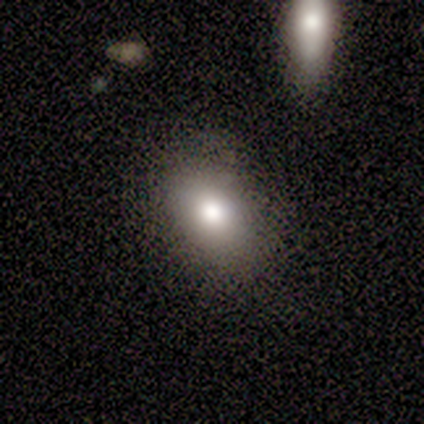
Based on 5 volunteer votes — Smooth or featured: smooth — 80% (star or artifact — 20%)
How rounded: in between — 100%
Merging: none — 75% (minor disturbance — 25%)